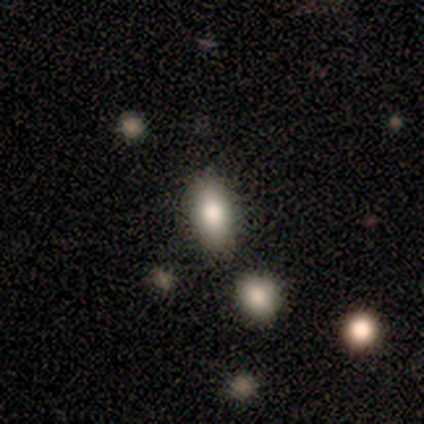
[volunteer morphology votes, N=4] This appears to be a smooth galaxy with no disk features (100%) that is in between round and cigar-shaped (100%). Merging: none (50%).